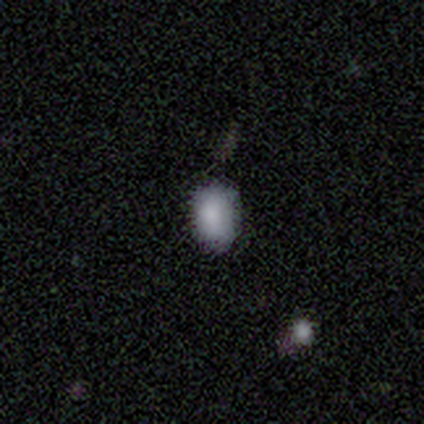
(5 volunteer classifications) This is clearly a smooth galaxy (80%). How rounded: likely in between (75%). Merging: clearly none (80%).